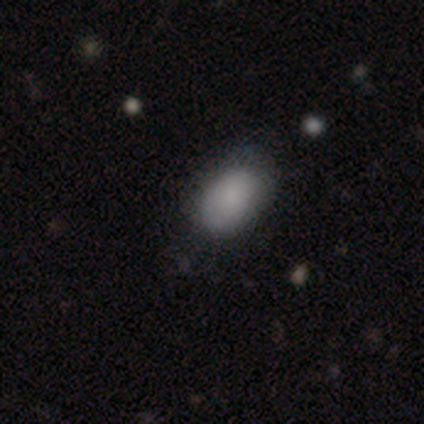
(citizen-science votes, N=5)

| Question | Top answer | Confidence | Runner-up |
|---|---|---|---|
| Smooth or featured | smooth | 100% | — |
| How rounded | in between | 80% | round (20%) |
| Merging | none | 80% | minor disturbance (20%) |